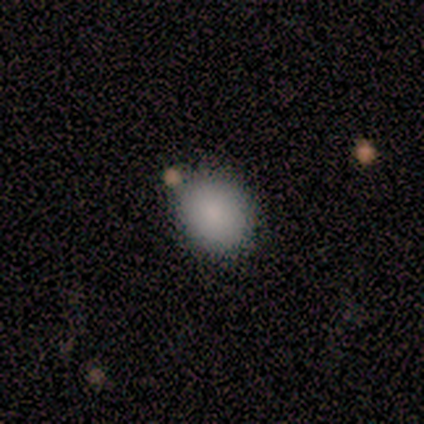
Smooth or featured: smooth — 100%
How rounded: in between — 60% (round — 40%)
Merging: none — 80% (merger — 20%)